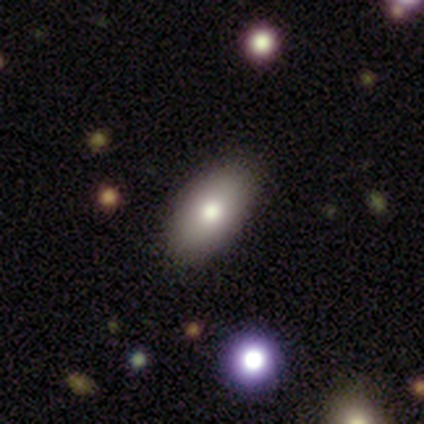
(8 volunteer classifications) Morphology: type=smooth (75%); roundness=in between (100%); merging=none (100%).